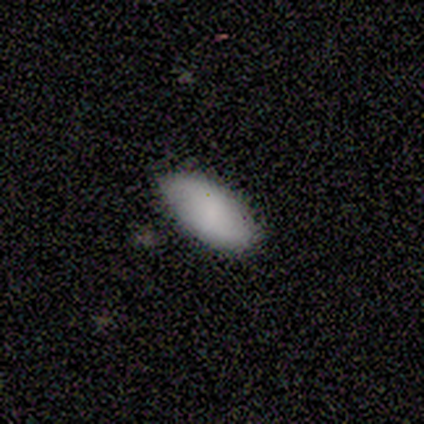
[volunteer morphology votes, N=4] Consensus on every question: smooth or featured — smooth (100%); how rounded — in between (100%); merging — none (100%).